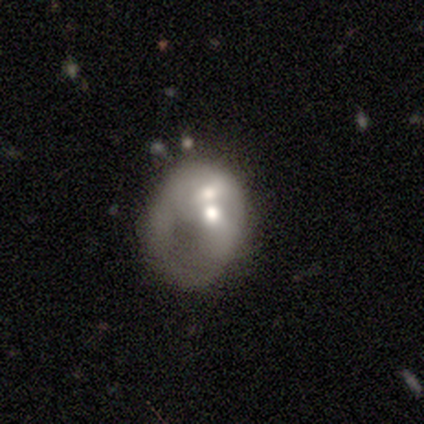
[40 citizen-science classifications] Smooth or featured?
  - featured or disk: 55% *
  - smooth: 40%
  - star or artifact: 5%
Edge-on disk?
  - no: 100% *
  - yes: 0%
Bar?
  - no: 91% *
  - weak: 9%
  - strong: 0%
Spiral arms?
  - no: 68% *
  - yes: 32%
Bulge size?
  - moderate: 59% *
  - small: 18%
  - large: 14%
  - dominant: 5%
  - none: 5%
Merging?
  - merger: 71% *
  - major disturbance: 18%
  - none: 5%
  - minor disturbance: 5%